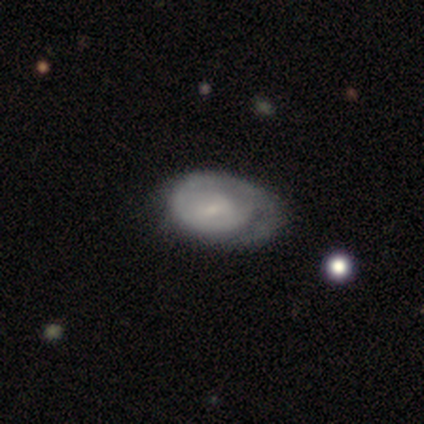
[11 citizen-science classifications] Volunteers were most divided on "smooth or featured": featured or disk: 55%, smooth: 45%, star or artifact: 0%. More confident: edge-on disk — no (100%); spiral winding — tight (100%); spiral arm count — 1 (100%); bar — no (83%); spiral arms — yes (67%); merging — minor disturbance (55%); bulge size — small (50%).